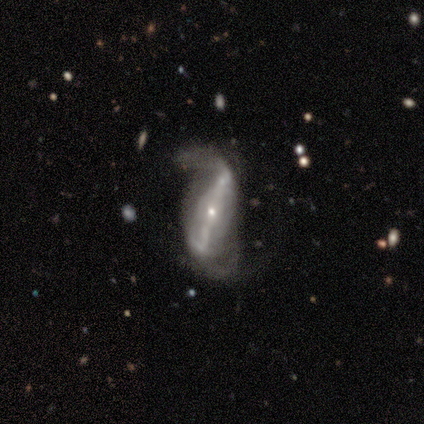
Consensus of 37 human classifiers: Q: Smooth or featured?
A: featured or disk (86%); runner-up: star or artifact (14%)
Q: Edge-on disk?
A: no (91%); runner-up: yes (9%)
Q: Bar?
A: strong (69%); runner-up: weak (24%)
Q: Spiral arms?
A: yes (90%); runner-up: no (10%)
Q: Spiral winding?
A: loose (77%); runner-up: medium (19%)
Q: Spiral arm count?
A: 2 (92%); runner-up: can't tell (8%)
Q: Bulge size?
A: small (69%); runner-up: moderate (31%)
Q: Merging?
A: none (66%); runner-up: major disturbance (25%)